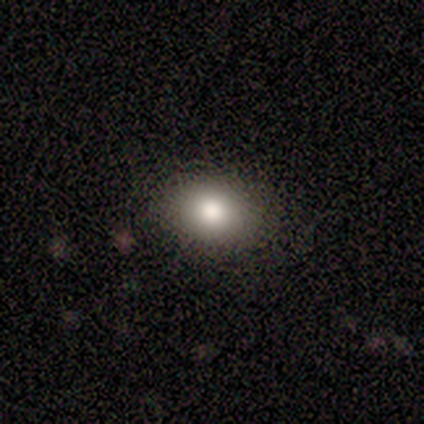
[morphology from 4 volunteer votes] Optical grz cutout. It shows a smooth galaxy with no disk features (75%) that is in between round and cigar-shaped (67%). Merging: none (100%).